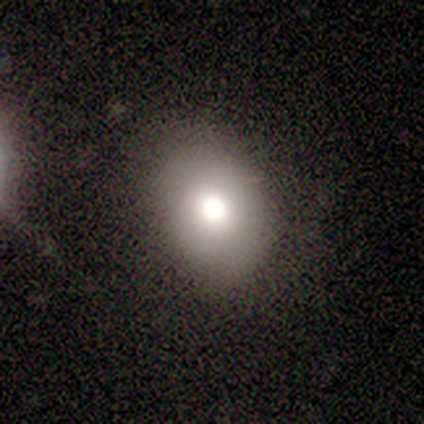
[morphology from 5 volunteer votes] Smooth or featured? smooth (80%)
How rounded? round (50%, tied with in between)
Merging? none (75%)